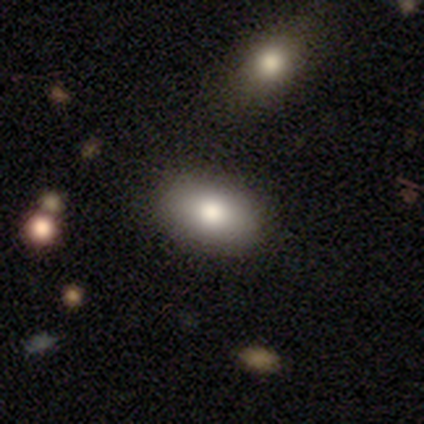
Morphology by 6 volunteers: Volunteers were most divided on "how rounded": in between: 83%, round: 17%, cigar-shaped: 0%. More confident: smooth or featured — smooth (100%); merging — none (100%).